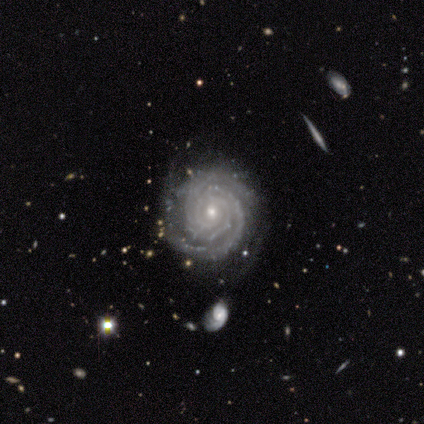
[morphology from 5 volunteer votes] A featured or disk galaxy (100%) with no bar (60%), 3 (60%) tight (100%) spiral arms (100%) and a small central bulge (100%).

Vote fractions:
- Smooth or featured? featured or disk: 100% / smooth: 0% / star or artifact: 0%
- Edge-on disk? no: 100% / yes: 0%
- Bar? no: 60% / strong: 40% / weak: 0%
- Spiral arms? yes: 100% / no: 0%
- Spiral winding? tight: 100% / medium: 0% / loose: 0%
- Spiral arm count? 3: 60% / 2: 20% / 4: 20% / 1: 0% / more than 4: 0% / can't tell: 0%
- Bulge size? small: 100% / dominant: 0% / large: 0% / moderate: 0% / none: 0%
- Merging? none: 100% / minor disturbance: 0% / major disturbance: 0% / merger: 0%